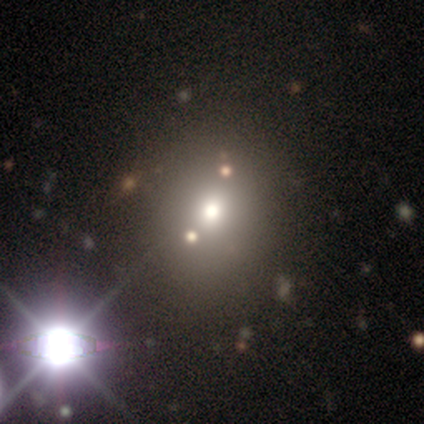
Smooth or featured? 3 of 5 (60%) said smooth. How rounded? 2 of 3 (67%) said in between. Merging? 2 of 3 (67%) said none.